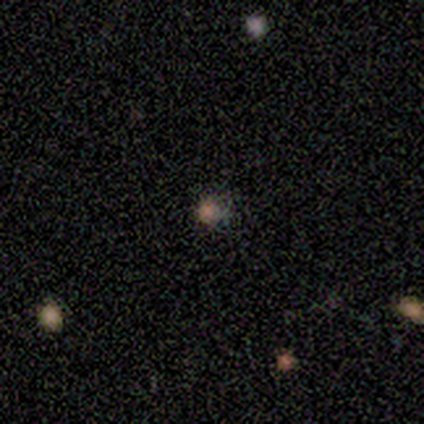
This is likely a star or artifact rather than a galaxy (60%).